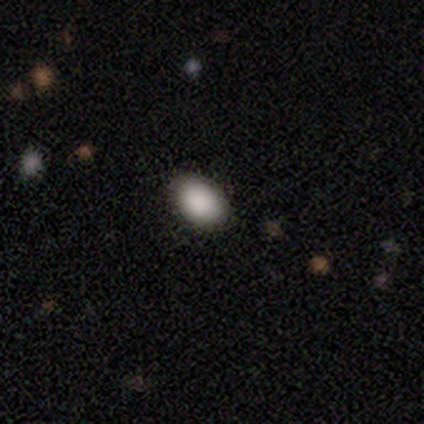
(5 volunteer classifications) Smooth or featured? smooth (80%)
How rounded? in between (75%)
Merging? none (100%)